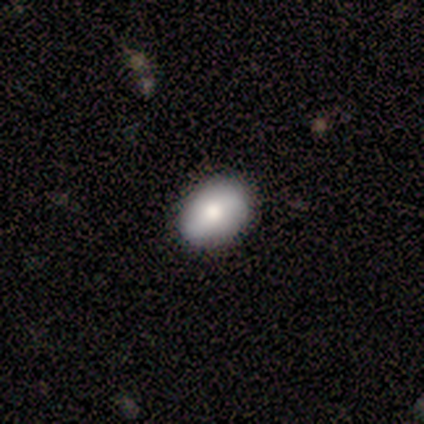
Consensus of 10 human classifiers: smooth_or_featured: smooth (p=0.60) [alt: featured or disk p=0.30]
how_rounded: in between (p=0.83) [alt: round p=0.17]
merging: none (p=0.89) [alt: minor disturbance p=0.11]